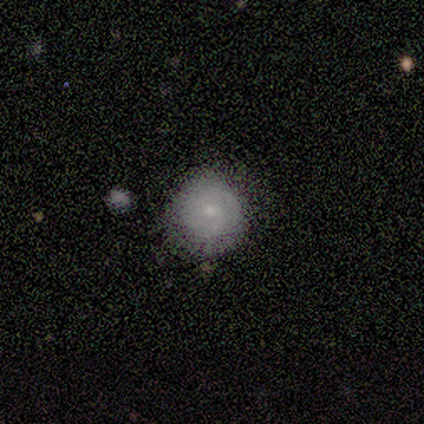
Smooth or featured: smooth — 60% (featured or disk — 40%)
How rounded: round — 100%
Merging: none — 100%